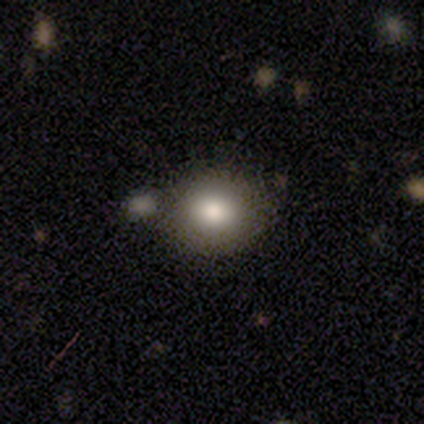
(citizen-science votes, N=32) smooth_or_featured: smooth (p=0.88) [alt: featured or disk p=0.09]
how_rounded: round (p=0.50) [tied with: in between p=0.50]
merging: merger (p=0.61)